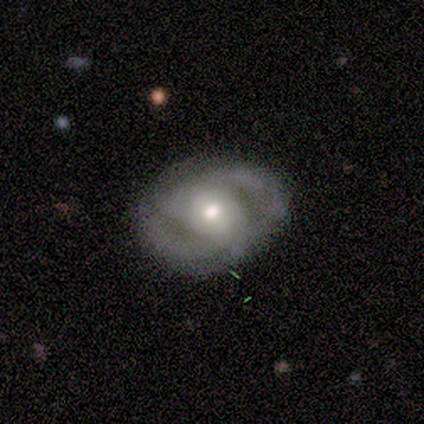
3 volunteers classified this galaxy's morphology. This appears to be a featured or disk galaxy (100%) with a strong bar (33%, tied with weak and no), 2 (67%) medium (67%) spiral arms (100%) and a moderate central bulge (67%). Merging: none (67%).